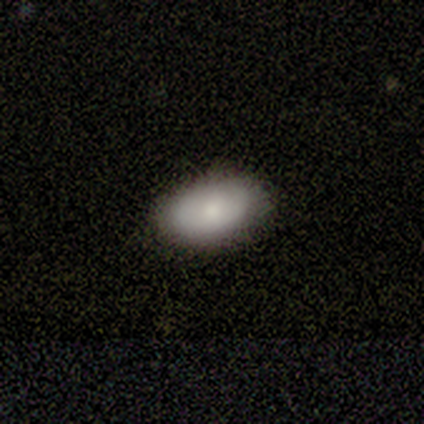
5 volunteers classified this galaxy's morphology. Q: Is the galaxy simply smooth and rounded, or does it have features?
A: smooth — 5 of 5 (100%).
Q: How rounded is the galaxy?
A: in between — 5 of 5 (100%).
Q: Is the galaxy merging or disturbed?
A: none — 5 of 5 (100%).